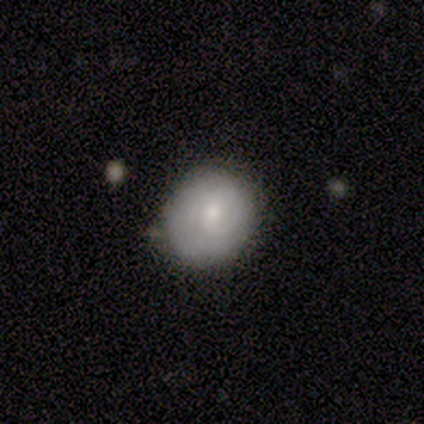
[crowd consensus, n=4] A smooth galaxy with no disk features (75%) that is round (100%).

Vote fractions:
- Smooth or featured? smooth: 75% / featured or disk: 25% / star or artifact: 0%
- How rounded? round: 100% / in between: 0% / cigar-shaped: 0%
- Merging? none: 75% / minor disturbance: 25% / major disturbance: 0% / merger: 0%